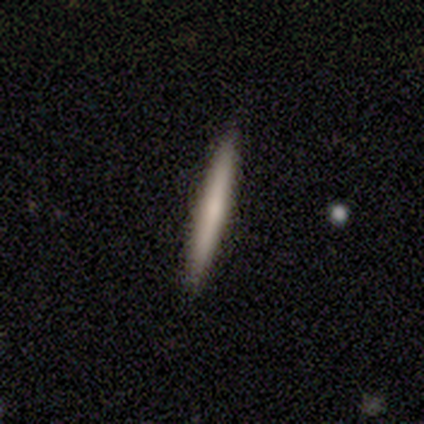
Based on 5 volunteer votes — Volunteers were most divided on "smooth or featured": smooth: 60%, featured or disk: 40%, star or artifact: 0%. More confident: how rounded — cigar-shaped (100%); merging — none (100%).